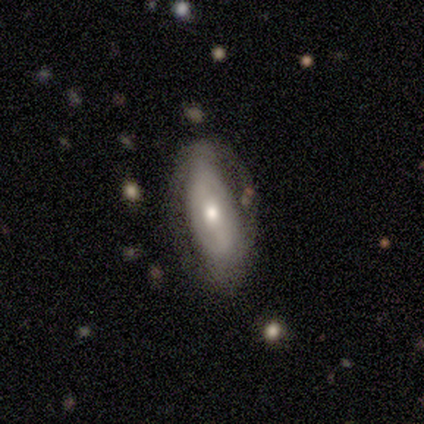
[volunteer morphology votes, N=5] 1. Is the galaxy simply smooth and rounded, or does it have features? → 80% featured or disk, 20% smooth, 0% star or artifact.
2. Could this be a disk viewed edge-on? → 100% no, 0% yes.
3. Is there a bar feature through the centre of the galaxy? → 75% no, 25% strong, 0% weak.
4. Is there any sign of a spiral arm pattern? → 75% no, 25% yes.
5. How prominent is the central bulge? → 75% moderate, 25% large, 0% dominant, 0% small, 0% none.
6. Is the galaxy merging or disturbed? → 80% none, 20% minor disturbance, 0% major disturbance, 0% merger.